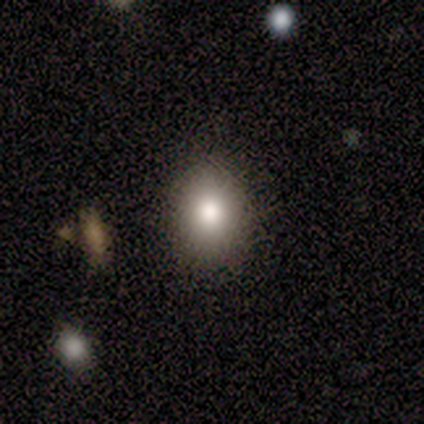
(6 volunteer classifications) Smooth or featured? smooth (67%)
How rounded? round (50%, tied with in between)
Merging? none (40%, tied with minor disturbance)